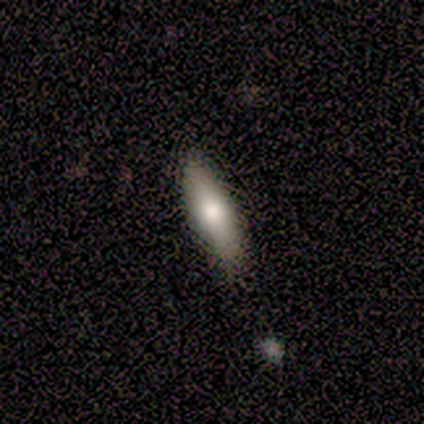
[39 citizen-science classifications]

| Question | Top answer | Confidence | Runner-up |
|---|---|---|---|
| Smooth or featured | smooth | 77% | featured or disk (15%) |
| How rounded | cigar-shaped | 67% | in between (33%) |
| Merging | none | 86% | minor disturbance (14%) |